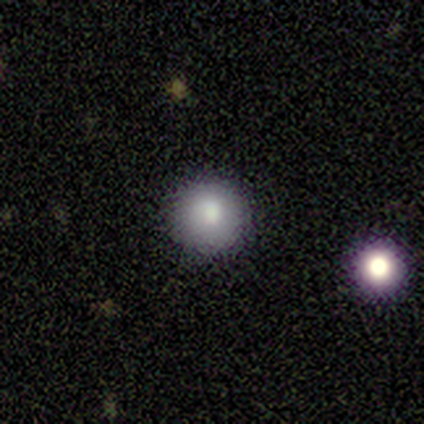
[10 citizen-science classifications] Morphology: type=smooth (80%); roundness=round (100%); merging=none (88%).